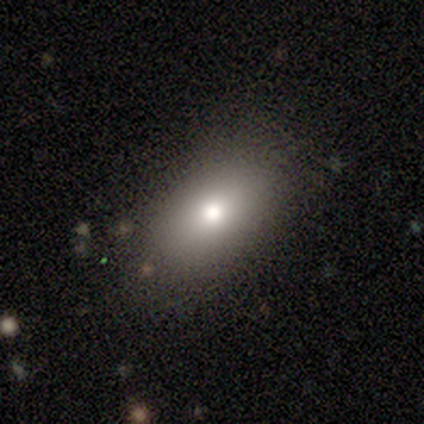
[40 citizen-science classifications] A smooth galaxy with no disk features (80%) that is in between round and cigar-shaped (88%). Merging: none (74%).